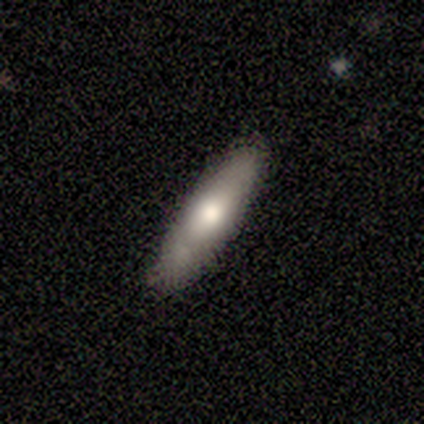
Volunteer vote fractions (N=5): smooth 80%, featured or disk 20%, star or artifact 0%. Down the decision tree: how rounded — cigar-shaped (75%); merging — none (60%).